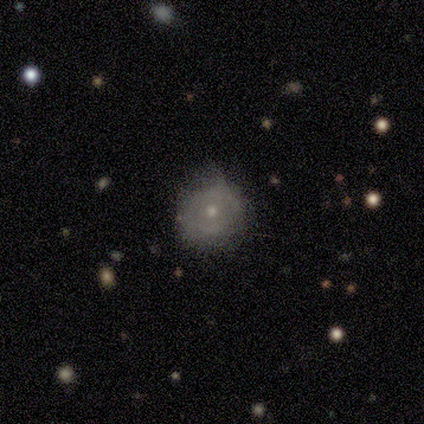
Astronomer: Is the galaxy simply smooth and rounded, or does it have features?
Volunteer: featured or disk — 80%.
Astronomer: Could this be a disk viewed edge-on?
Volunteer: no — 100%.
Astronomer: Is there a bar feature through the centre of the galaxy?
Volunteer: no — 75%.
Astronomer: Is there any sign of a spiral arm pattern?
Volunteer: yes — 50%, tied with no at 50%.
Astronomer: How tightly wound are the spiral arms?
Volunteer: tight — 50%, tied with medium at 50%.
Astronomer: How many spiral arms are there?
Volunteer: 2 — 100%.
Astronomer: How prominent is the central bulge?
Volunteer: moderate — 50%, tied with small at 50%.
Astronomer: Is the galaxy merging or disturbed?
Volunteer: minor disturbance — 80%.